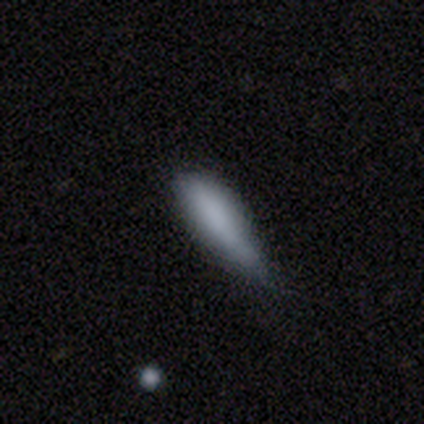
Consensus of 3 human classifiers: Q: Smooth or featured?
A: smooth (100%)
Q: How rounded?
A: in between (67%); runner-up: cigar-shaped (33%)
Q: Merging?
A: minor disturbance (67%); runner-up: major disturbance (33%)